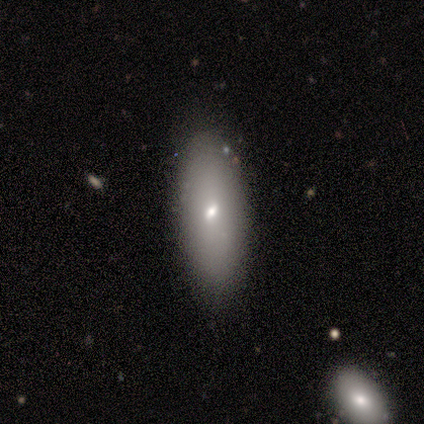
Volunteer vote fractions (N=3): Volunteers were most divided on "smooth or featured": smooth: 67%, featured or disk: 33%, star or artifact: 0%. More confident: how rounded — in between (100%); merging — none (100%).